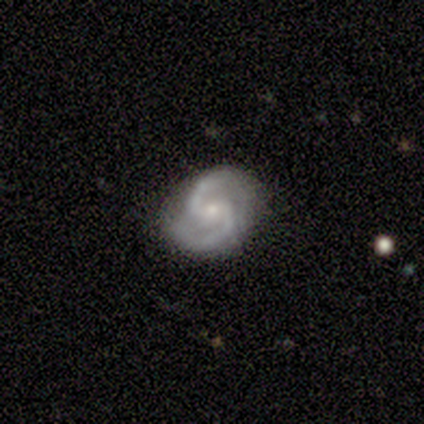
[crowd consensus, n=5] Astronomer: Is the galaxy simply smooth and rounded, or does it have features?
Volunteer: featured or disk — 80%.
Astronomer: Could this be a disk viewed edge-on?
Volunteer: no — 100%.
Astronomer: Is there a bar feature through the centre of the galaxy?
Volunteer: weak — 50%, tied with no at 50%.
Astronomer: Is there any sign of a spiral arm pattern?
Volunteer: yes — 100%.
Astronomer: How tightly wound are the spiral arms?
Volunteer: medium — 100%.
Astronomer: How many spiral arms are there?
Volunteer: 2 — 100%.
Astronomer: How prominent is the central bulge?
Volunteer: small — 75%.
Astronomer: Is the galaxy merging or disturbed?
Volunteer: none — 100%.